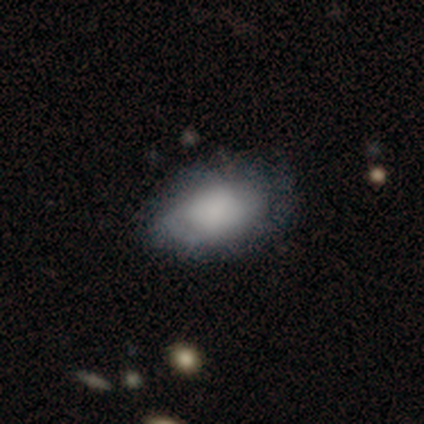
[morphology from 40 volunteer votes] smooth_or_featured: smooth (p=0.70) [alt: featured or disk p=0.30]
how_rounded: in between (p=0.93) [alt: round p=0.04]
merging: none (p=0.42) [alt: minor disturbance p=0.25]